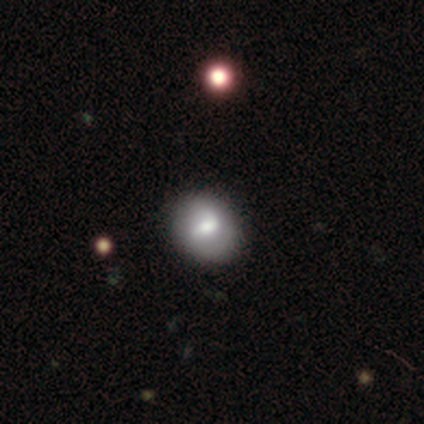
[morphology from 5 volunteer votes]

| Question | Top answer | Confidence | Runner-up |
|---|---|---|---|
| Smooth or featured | featured or disk | 80% | smooth (20%) |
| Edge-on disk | no | 100% | — |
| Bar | strong | 75% | weak (25%) |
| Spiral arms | yes | 50% | tied: no (50%) |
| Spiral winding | tight | 50% | tied: medium (50%) |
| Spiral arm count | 1 | 50% | tied: 2 (50%) |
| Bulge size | moderate | 100% | — |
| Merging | none | 80% | minor disturbance (20%) |